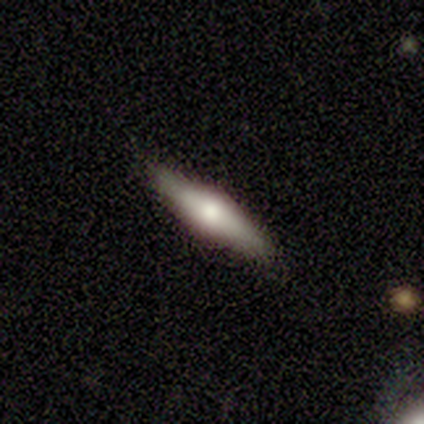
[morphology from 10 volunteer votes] Smooth or featured?
  - smooth: 50% *
  - featured or disk: 40%
  - star or artifact: 10%
How rounded?
  - cigar-shaped: 80% *
  - in between: 20%
  - round: 0%
Merging?
  - none: 89% *
  - minor disturbance: 11%
  - major disturbance: 0%
  - merger: 0%